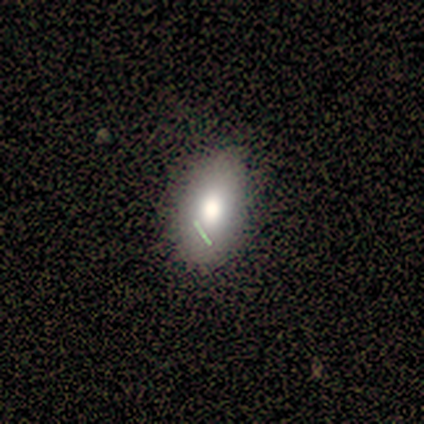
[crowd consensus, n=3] Smooth or featured?
  - smooth: 67% *
  - featured or disk: 33%
  - star or artifact: 0%
How rounded?
  - in between: 100% *
  - round: 0%
  - cigar-shaped: 0%
Merging?
  - none: 100% *
  - minor disturbance: 0%
  - major disturbance: 0%
  - merger: 0%